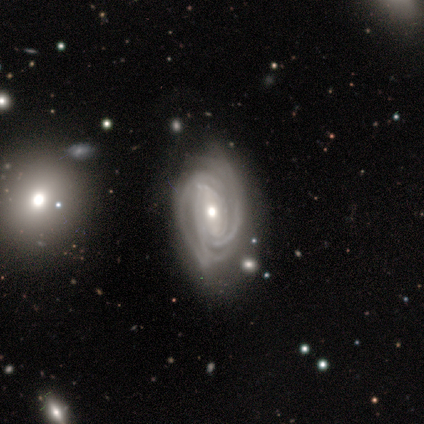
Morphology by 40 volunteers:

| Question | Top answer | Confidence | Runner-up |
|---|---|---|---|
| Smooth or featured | featured or disk | 92% | smooth (8%) |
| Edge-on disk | no | 95% | yes (5%) |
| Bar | strong | 40% | tied: weak (40%) |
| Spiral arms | yes | 94% | no (6%) |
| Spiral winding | tight | 76% | medium (24%) |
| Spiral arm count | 3 | 48% | 2 (21%) |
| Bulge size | moderate | 69% | small (29%) |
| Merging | none | 60% | minor disturbance (18%) |